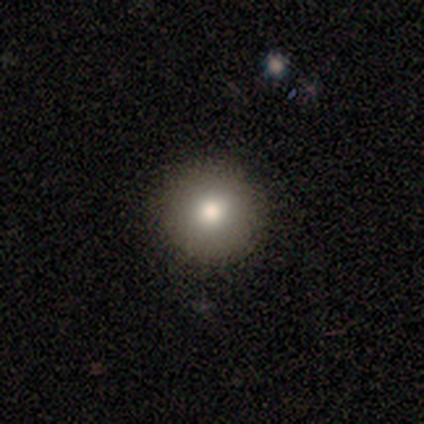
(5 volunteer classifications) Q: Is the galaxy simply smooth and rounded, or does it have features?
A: featured or disk — 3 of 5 (60%).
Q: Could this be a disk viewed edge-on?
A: no — 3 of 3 (100%).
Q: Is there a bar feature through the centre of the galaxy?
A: no — 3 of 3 (100%).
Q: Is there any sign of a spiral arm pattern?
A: no — 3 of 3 (100%).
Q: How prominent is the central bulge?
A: moderate — 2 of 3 (67%).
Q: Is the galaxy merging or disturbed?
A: none — 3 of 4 (75%).